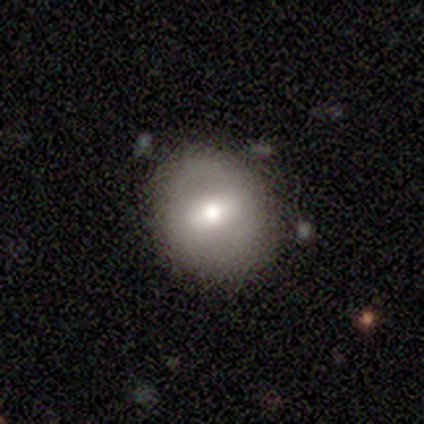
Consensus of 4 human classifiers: Overall: smooth (100%). How rounded: round (75%). Merging: none (75%).